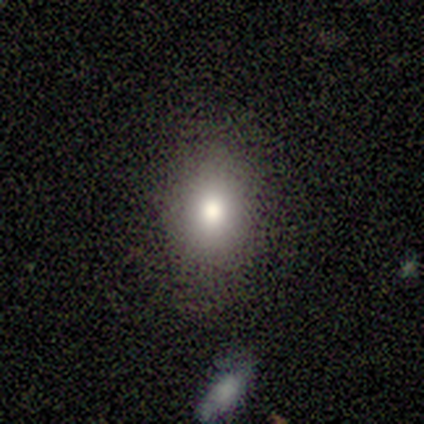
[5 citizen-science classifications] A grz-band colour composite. It shows a smooth galaxy with no disk features (100%) that is in between round and cigar-shaped (60%). Merging: none (100%).